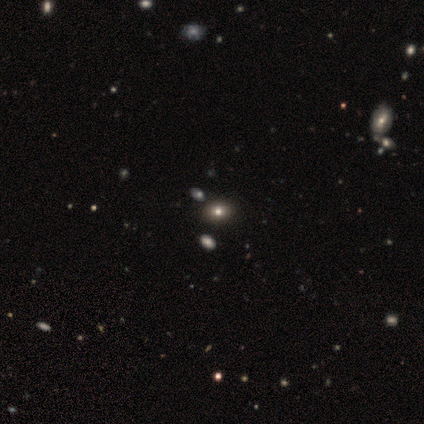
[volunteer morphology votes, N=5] smooth_or_featured: smooth (p=0.60) [alt: featured or disk p=0.20]
how_rounded: in between (p=0.67) [alt: round p=0.33]
merging: none (p=0.75) [alt: minor disturbance p=0.25]